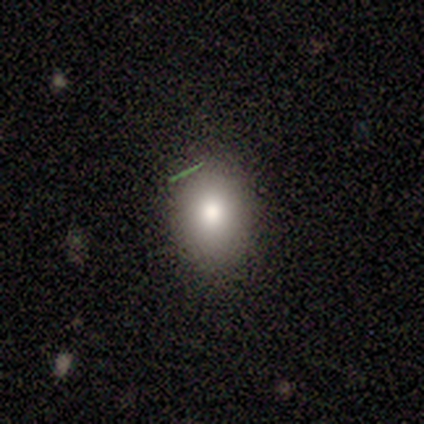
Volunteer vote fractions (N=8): This appears to be a smooth galaxy with no disk features (62%) that is in between round and cigar-shaped (60%). Merging: none (83%).